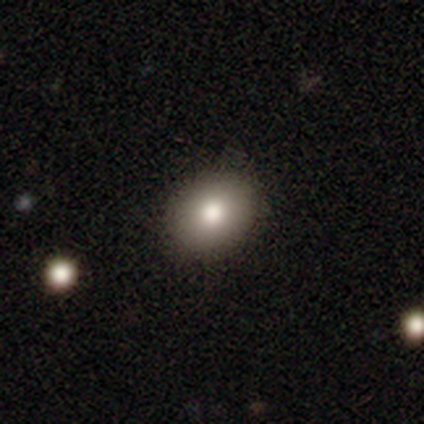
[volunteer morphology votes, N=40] A smooth galaxy with no disk features (85%) that is in between round and cigar-shaped (53%).

Vote fractions:
- Smooth or featured? smooth: 85% / featured or disk: 12% / star or artifact: 2%
- How rounded? in between: 53% / round: 47% / cigar-shaped: 0%
- Merging? none: 79% / minor disturbance: 5% / major disturbance: 0% / merger: 0%